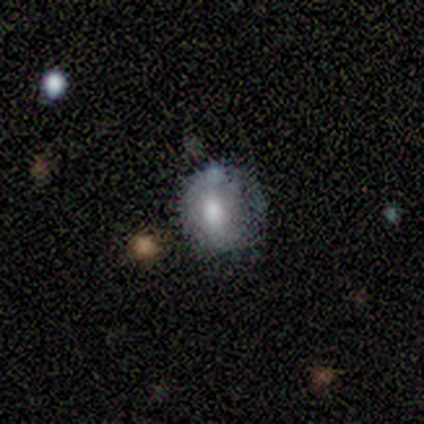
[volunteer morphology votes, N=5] Volunteers were most divided on "smooth or featured" (2-way tie): smooth: 40%, featured or disk: 40%, star or artifact: 20%. More confident: how rounded — round (100%); merging — none (75%).